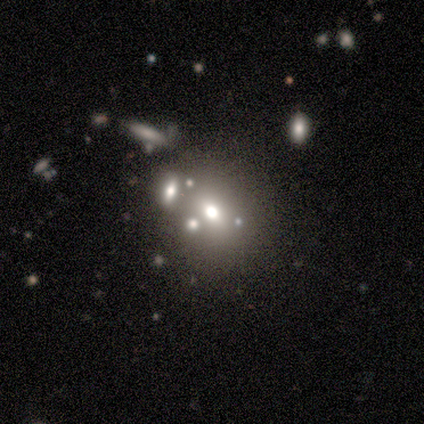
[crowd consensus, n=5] Q: Smooth or featured?
A: smooth (60%); runner-up: featured or disk (40%)
Q: How rounded?
A: round (67%); runner-up: in between (33%)
Q: Merging?
A: none (60%); runner-up: minor disturbance (20%)